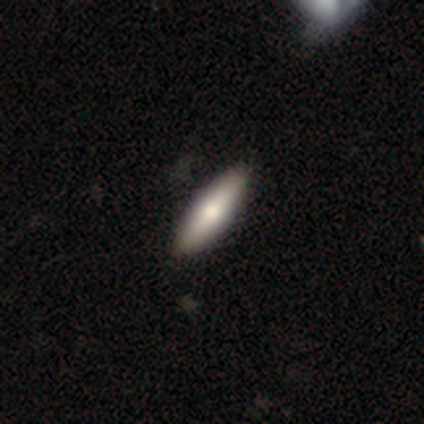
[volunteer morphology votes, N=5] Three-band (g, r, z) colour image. It shows a smooth galaxy with no disk features (80%) that is cigar-shaped (75%). Merging: none (100%).